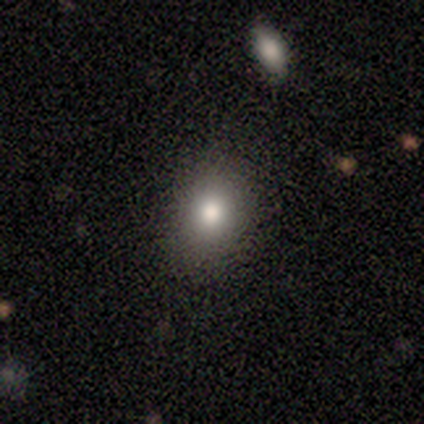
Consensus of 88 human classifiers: Smooth or featured: smooth — 72% (featured or disk — 15%)
How rounded: in between — 51% (round — 49%)
Merging: none — 83% (minor disturbance — 11%)